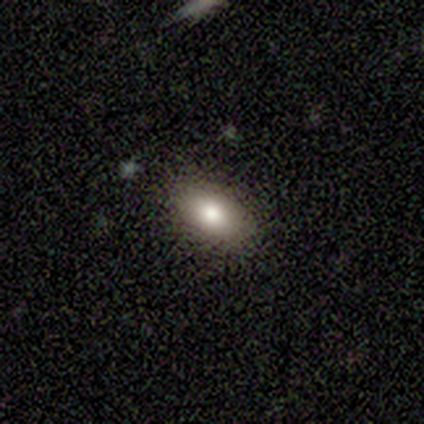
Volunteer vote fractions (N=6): This appears to be a smooth galaxy with no disk features (83%) that is in between round and cigar-shaped (100%). Merging: none (100%).